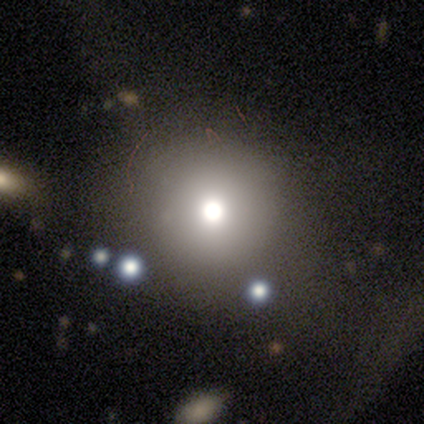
Volunteers were most divided on "smooth or featured": smooth: 60%, star or artifact: 40%, featured or disk: 0%. More confident: how rounded — round (100%); merging — none (100%).